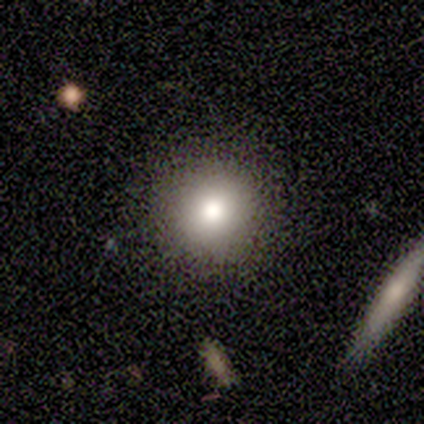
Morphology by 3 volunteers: smooth-or-featured: smooth: 67% | featured or disk: 33% | star or artifact: 0%
  how-rounded: round: 100% | in between: 0% | cigar-shaped: 0%
  merging: none: 100% | minor disturbance: 0% | major disturbance: 0% | merger: 0%